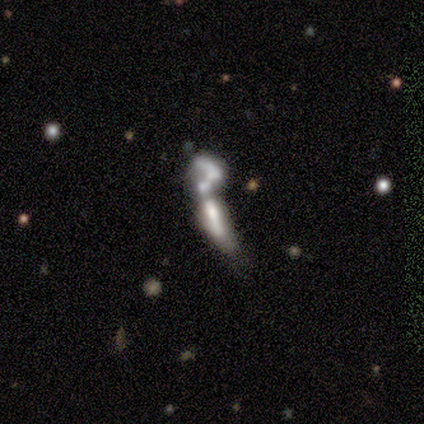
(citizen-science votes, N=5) Smooth or featured? smooth (80%)
How rounded? cigar-shaped (75%)
Merging? merger (60%)